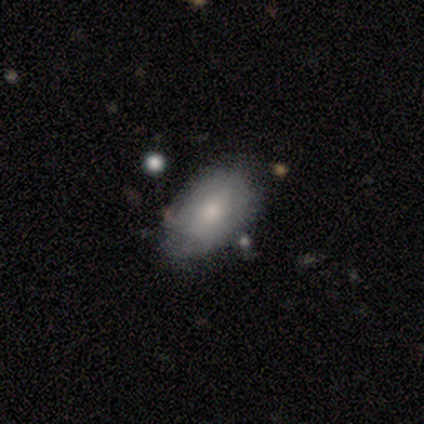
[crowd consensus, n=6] Overall: smooth (67%; featured or disk 33%). How rounded: in between (100%). Merging: none (83%).